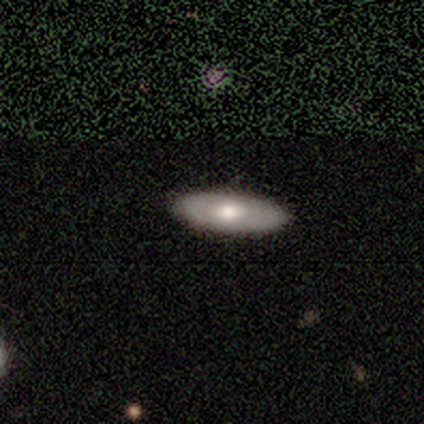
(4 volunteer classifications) Overall: smooth (50%; featured or disk 25%). How rounded: in between (100%). Merging: none (100%).